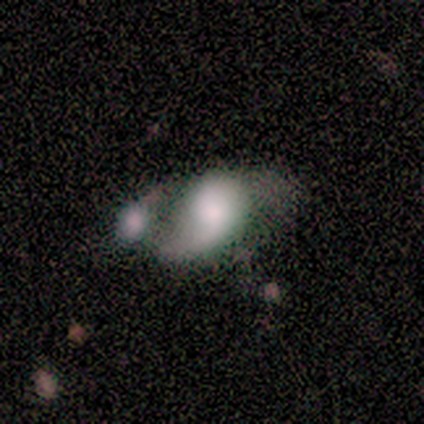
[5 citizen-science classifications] A featured or disk galaxy (60%) with no bar (67%), 1 (50%, tied with 2) medium (50%, tied with loose) spiral arms (67%) and a large central bulge (67%).

Vote fractions:
- Smooth or featured? featured or disk: 60% / smooth: 20% / star or artifact: 20%
- Edge-on disk? no: 100% / yes: 0%
- Bar? no: 67% / weak: 33% / strong: 0%
- Spiral arms? yes: 67% / no: 33%
- Spiral winding? medium: 50% (tied) / loose: 50% (tied) / tight: 0%
- Spiral arm count? 1: 50% (tied) / 2: 50% (tied) / 3: 0% / 4: 0% / more than 4: 0% / can't tell: 0%
- Bulge size? large: 67% / moderate: 33% / dominant: 0% / small: 0% / none: 0%
- Merging? merger: 50% / none: 25% / major disturbance: 25% / minor disturbance: 0%